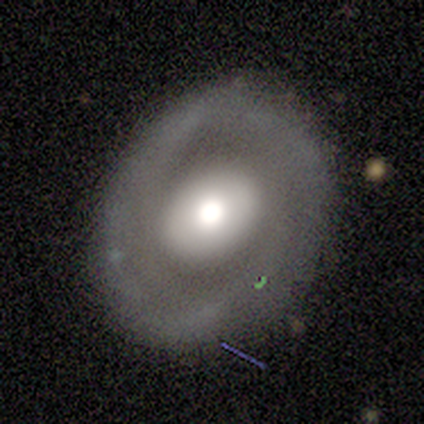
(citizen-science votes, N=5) This is likely a featured or disk galaxy (60%). It is clearly not viewed edge-on (100%). Bar: likely no (67%). Spiral arm pattern: likely yes (67%). Spiral arm count: clearly can't tell (100%). Spiral winding: possibly tight (50%, tied with medium). Central bulge: likely moderate (67%). Merging: likely none (60%).